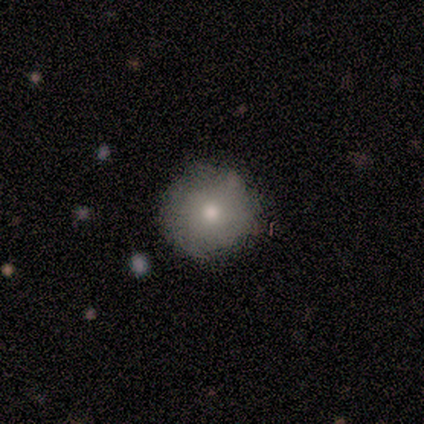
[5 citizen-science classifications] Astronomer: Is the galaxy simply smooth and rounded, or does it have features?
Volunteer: smooth — 60% (runner-up: featured or disk, 40%).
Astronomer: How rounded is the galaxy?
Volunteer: round — 100%.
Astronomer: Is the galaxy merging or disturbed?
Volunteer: none — 80%.